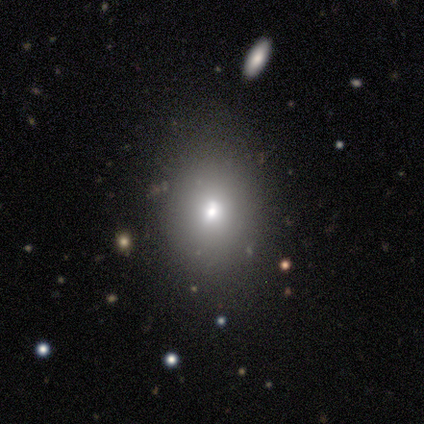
This appears to be a smooth galaxy with no disk features (100%) that is in between round and cigar-shaped (80%). Merging: none (40%, tied with minor disturbance).